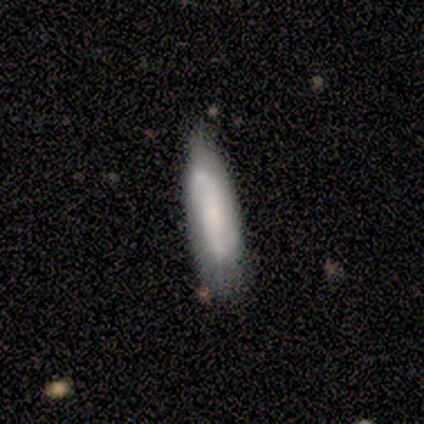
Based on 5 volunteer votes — Smooth or featured: smooth — 60% (featured or disk — 40%)
How rounded: cigar-shaped — 67% (in between — 33%)
Merging: none — 60% (minor disturbance — 20%)